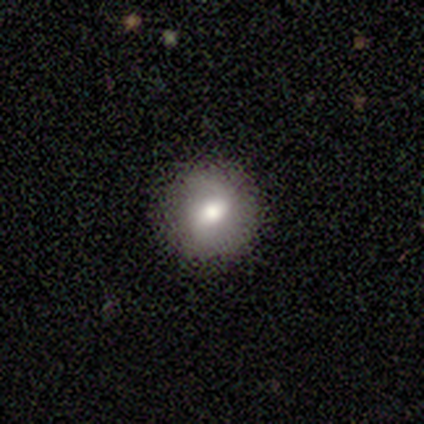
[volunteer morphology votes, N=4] Smooth or featured: smooth — 50% (tied with featured or disk — 50%)
How rounded: round — 50% (tied with in between — 50%)
Merging: none — 100%